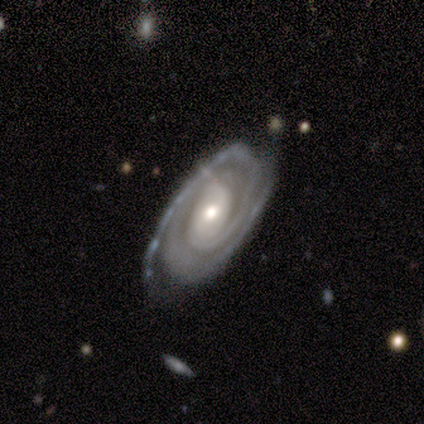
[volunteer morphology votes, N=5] Overall: featured or disk (100%). Edge-on disk: no (100%). Bar: strong (40%, tied with weak). Spiral arms: yes (100%). Spiral arm count: 2 (100%). Spiral winding: tight (100%). Bulge size: small (60%; moderate 40%). Merging: none (100%).